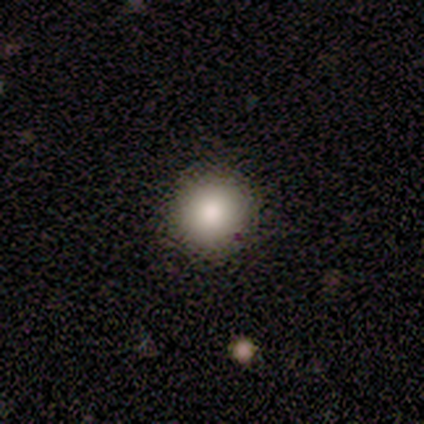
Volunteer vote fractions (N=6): Morphology: type=smooth (83%); roundness=round (100%); merging=none (100%).